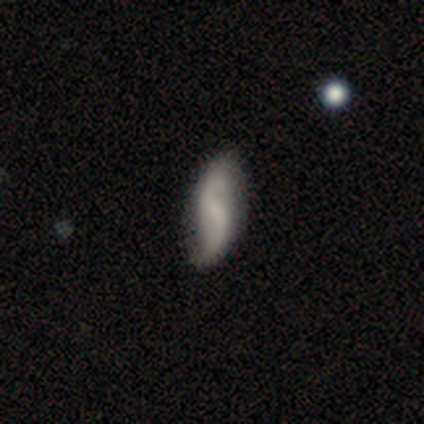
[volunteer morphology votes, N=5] Smooth or featured? featured or disk (80%)
Edge-on disk? no (100%)
Bar? strong (50%, tied with no)
Spiral arms? yes (100%)
Spiral winding? loose (100%)
Spiral arm count? 2 (100%)
Bulge size? none (50%)
Merging? none (60%)